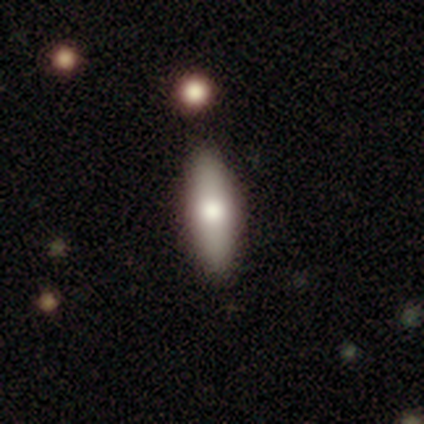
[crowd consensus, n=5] Smooth or featured?
  - smooth: 60% *
  - featured or disk: 20%
  - star or artifact: 20%
How rounded?
  - in between: 67% *
  - cigar-shaped: 33%
  - round: 0%
Merging?
  - none: 75% *
  - major disturbance: 25%
  - minor disturbance: 0%
  - merger: 0%